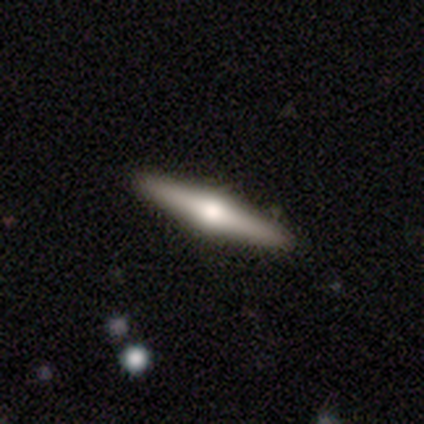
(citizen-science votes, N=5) featured or disk 60%, smooth 40%, star or artifact 0%. Down the decision tree: edge-on disk — yes (100%); edge-on bulge — rounded (100%); merging — none (80%).